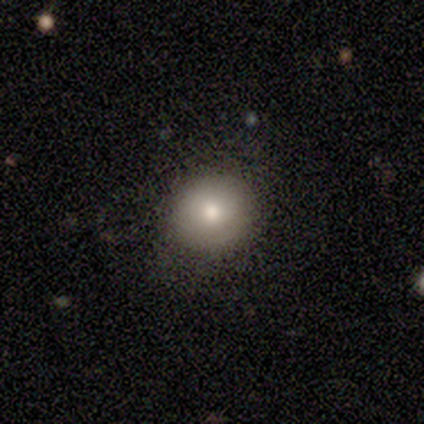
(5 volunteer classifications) Q: Smooth or featured?
A: smooth (100%)
Q: How rounded?
A: round (100%)
Q: Merging?
A: none (40%); tied with: minor disturbance (40%)